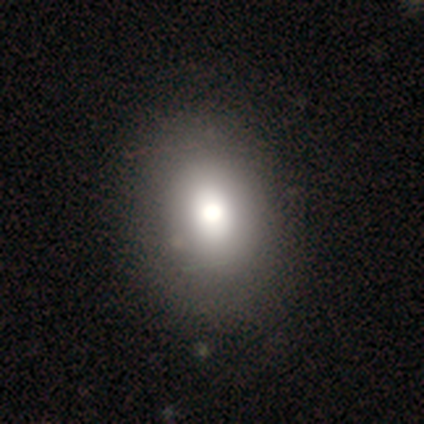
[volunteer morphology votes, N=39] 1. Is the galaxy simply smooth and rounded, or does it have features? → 69% smooth, 18% star or artifact, 13% featured or disk.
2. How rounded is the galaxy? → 52% in between, 48% round, 0% cigar-shaped.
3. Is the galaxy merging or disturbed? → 66% none, 6% minor disturbance, 3% major disturbance, 0% merger.